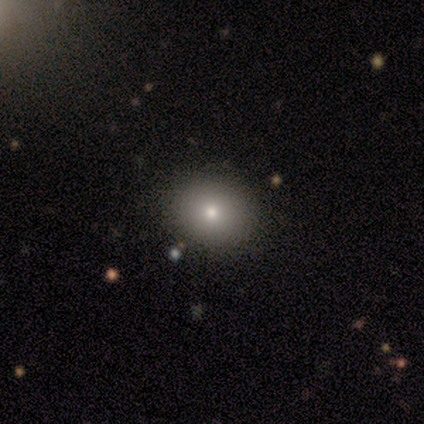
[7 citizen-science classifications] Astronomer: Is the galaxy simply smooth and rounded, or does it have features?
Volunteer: smooth — 71%.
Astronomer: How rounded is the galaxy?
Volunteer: in between — 60% (runner-up: round, 40%).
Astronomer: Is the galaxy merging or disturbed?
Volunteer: none — 100%.